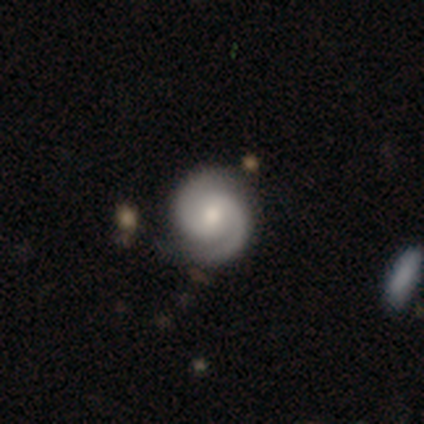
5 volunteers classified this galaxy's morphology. Volunteers were most divided on "spiral winding": tight: 60%, medium: 40%, loose: 0%. More confident: smooth or featured — featured or disk (100%); edge-on disk — no (100%); spiral arms — yes (100%); merging — none (100%); spiral arm count — 2 (80%); bar — no (60%); bulge size — moderate (60%).